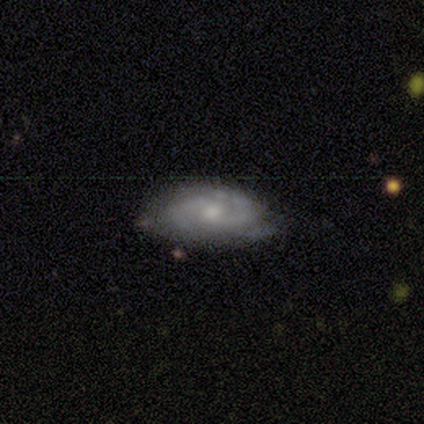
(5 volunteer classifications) featured or disk 100%, smooth 0%, star or artifact 0%. Down the decision tree: edge-on disk — no (100%); bar — no (80%); spiral arms — yes (100%); spiral arm count — 2 (60%); spiral winding — tight (60%); bulge size — small (80%); merging — none (60%).